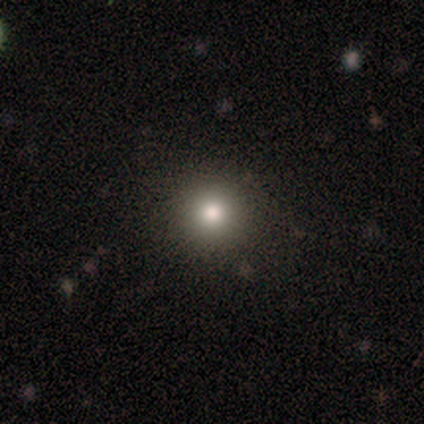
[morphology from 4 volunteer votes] This is clearly a smooth galaxy (100%). How rounded: clearly round (100%). Merging: likely none (75%).